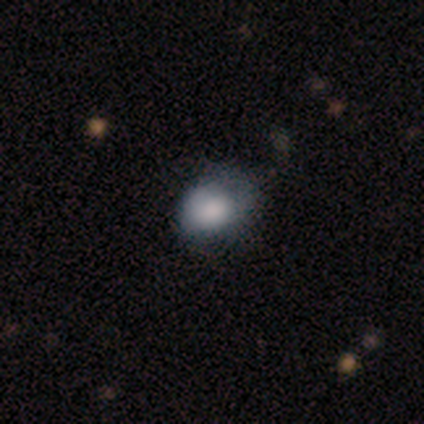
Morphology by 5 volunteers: Volunteers were most divided on "merging" (2-way tie): none: 40%, minor disturbance: 40%, major disturbance: 20%, merger: 0%. More confident: smooth or featured — smooth (100%); how rounded — round (60%).